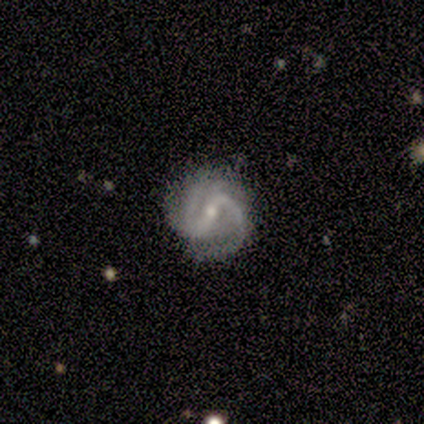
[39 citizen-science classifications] A featured or disk galaxy (95%) with a strong bar (46%), 2 (83%) medium (69%) spiral arms (100%) and a small central bulge (51%). Merging: none (79%).